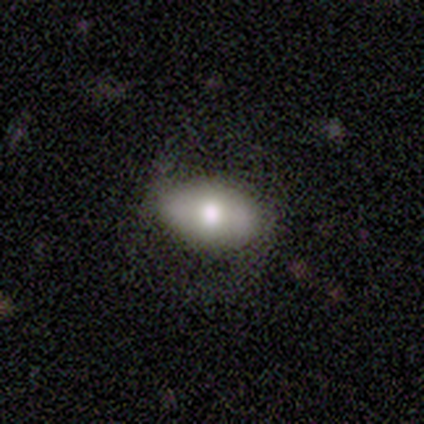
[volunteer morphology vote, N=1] smooth-or-featured: featured or disk: 100% | smooth: 0% | star or artifact: 0%
  disk-edge-on: no: 100% | yes: 0%
    bar: no: 100% | strong: 0% | weak: 0%
    has-spiral-arms: no: 100% | yes: 0%
    bulge-size: moderate: 100% | dominant: 0% | large: 0% | small: 0% | none: 0%
  merging: none: 100% | minor disturbance: 0% | major disturbance: 0% | merger: 0%